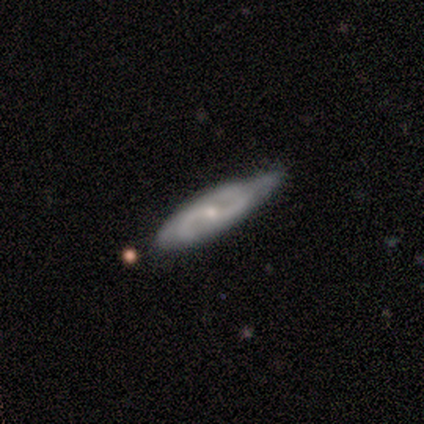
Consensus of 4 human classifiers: smooth-or-featured: featured or disk: 100% | smooth: 0% | star or artifact: 0%
  disk-edge-on: no: 100% | yes: 0%
    bar: weak: 50% (tied) | no: 50% (tied) | strong: 0%
    has-spiral-arms: yes: 100% | no: 0%
      spiral-winding: medium: 50% | tight: 25% | loose: 25%
      spiral-arm-count: 2: 75% | can't tell: 25% | 1: 0% | 3: 0% | 4: 0% | more than 4: 0%
    bulge-size: small: 75% | moderate: 25% | dominant: 0% | large: 0% | none: 0%
  merging: minor disturbance: 100% | none: 0% | major disturbance: 0% | merger: 0%